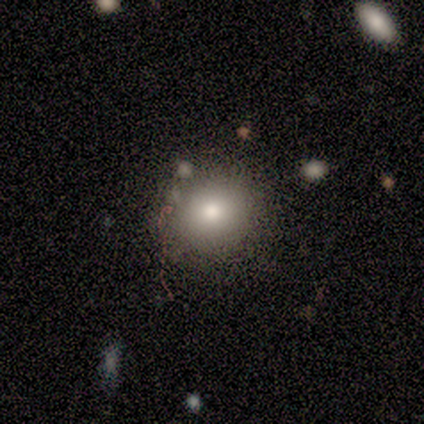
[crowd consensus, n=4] Overall: smooth (100%). How rounded: round (75%). Merging: none (100%).